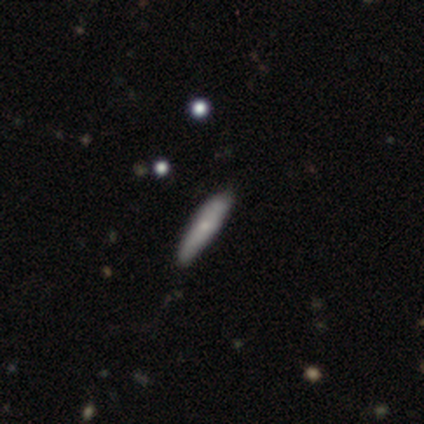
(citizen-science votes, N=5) Smooth or featured: smooth — 40% (tied with featured or disk — 40%)
How rounded: cigar-shaped — 100%
Merging: none — 100%